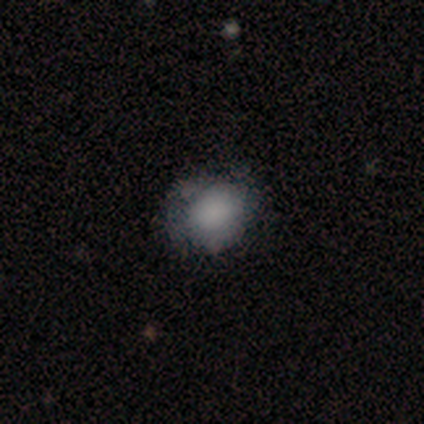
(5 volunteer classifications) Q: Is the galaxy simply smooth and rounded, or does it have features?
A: smooth — 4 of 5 (80%).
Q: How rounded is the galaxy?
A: in between — 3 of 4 (75%).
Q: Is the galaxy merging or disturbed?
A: none — 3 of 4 (75%).